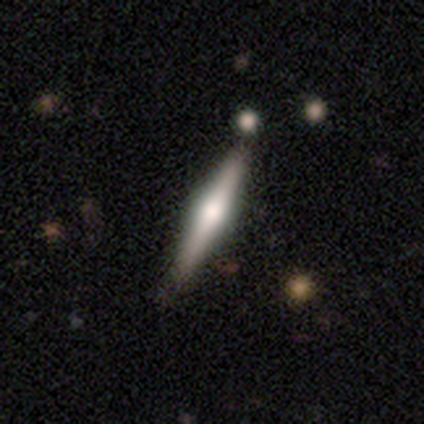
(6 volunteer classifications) Smooth or featured? featured or disk (83%)
Edge-on disk? yes (100%)
Edge-on bulge? rounded (100%)
Merging? none (50%, tied with minor disturbance)